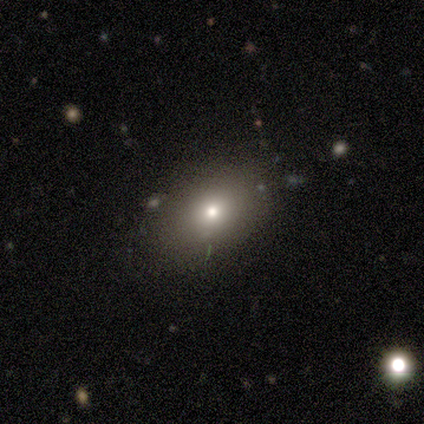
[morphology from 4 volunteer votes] This is likely a smooth galaxy (75%). How rounded: likely round (67%). Merging: clearly none (100%).